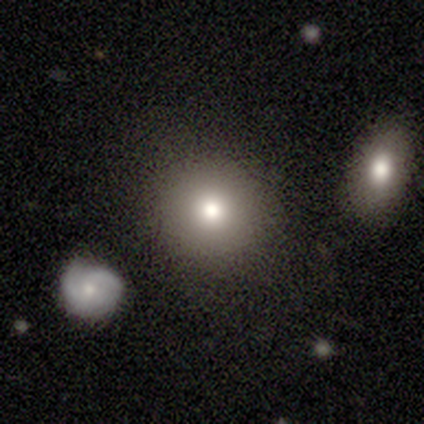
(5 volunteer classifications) smooth-or-featured: smooth: 40% (tied) | star or artifact: 40% (tied) | featured or disk: 20%
  how-rounded: round: 50% (tied) | in between: 50% (tied) | cigar-shaped: 0%
  merging: none: 67% | merger: 33% | minor disturbance: 0% | major disturbance: 0%